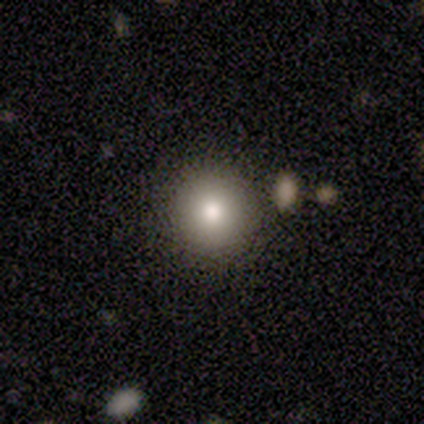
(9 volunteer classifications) smooth 78%, star or artifact 22%, featured or disk 0%. Down the decision tree: how rounded — round (86%); merging — none (86%).